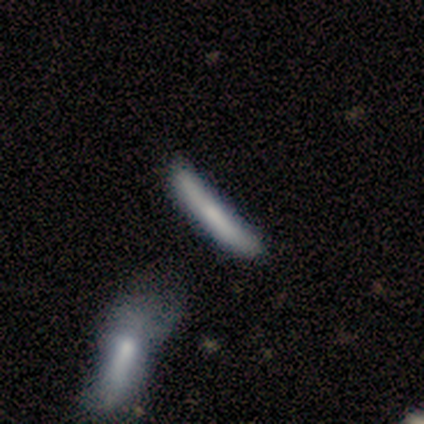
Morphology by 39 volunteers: Smooth or featured? 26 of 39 (67%) said smooth. How rounded? 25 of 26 (96%) said cigar-shaped. Merging? 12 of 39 (31%) said minor disturbance.